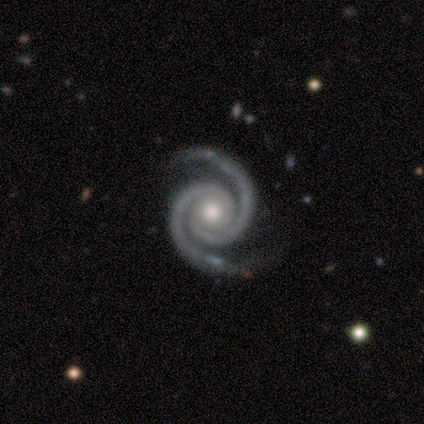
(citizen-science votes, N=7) smooth-or-featured: featured or disk: 86% | star or artifact: 14% | smooth: 0%
  disk-edge-on: no: 100% | yes: 0%
    bar: no: 83% | strong: 17% | weak: 0%
    has-spiral-arms: yes: 100% | no: 0%
      spiral-winding: tight: 100% | medium: 0% | loose: 0%
      spiral-arm-count: 2: 100% | 1: 0% | 3: 0% | 4: 0% | more than 4: 0% | can't tell: 0%
    bulge-size: moderate: 83% | small: 17% | dominant: 0% | large: 0% | none: 0%
  merging: none: 100% | minor disturbance: 0% | major disturbance: 0% | merger: 0%